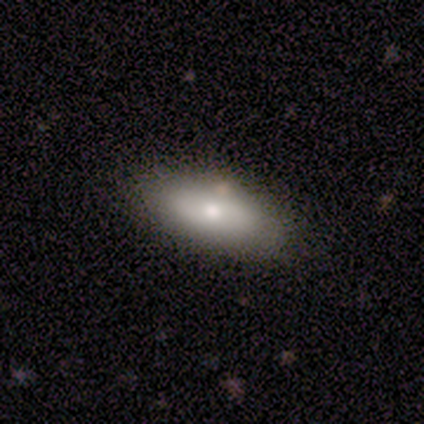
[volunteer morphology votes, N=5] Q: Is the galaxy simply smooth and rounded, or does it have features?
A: smooth — 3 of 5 (60%).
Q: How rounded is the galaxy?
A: in between — 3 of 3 (100%).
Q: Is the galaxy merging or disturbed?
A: none — 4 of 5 (80%).